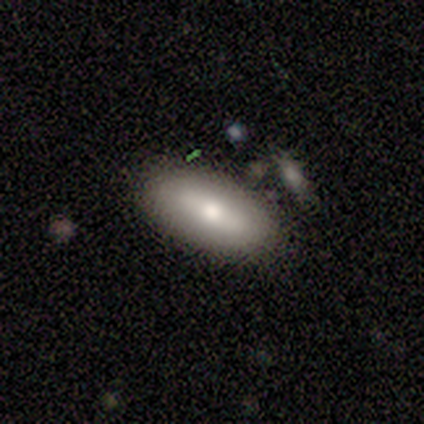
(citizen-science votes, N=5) Smooth or featured? smooth (80%)
How rounded? in between (75%)
Merging? none (50%)